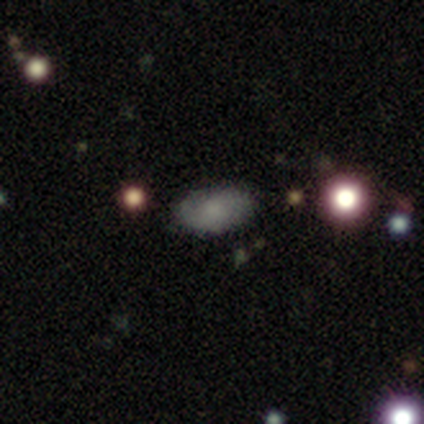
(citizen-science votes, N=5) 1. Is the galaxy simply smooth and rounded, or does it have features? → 80% smooth, 20% featured or disk, 0% star or artifact.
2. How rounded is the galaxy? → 100% in between, 0% round, 0% cigar-shaped.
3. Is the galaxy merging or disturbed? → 100% none, 0% minor disturbance, 0% major disturbance, 0% merger.